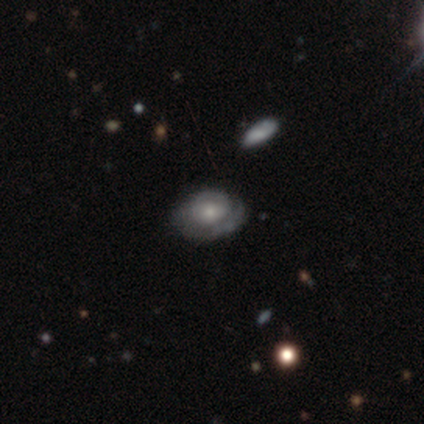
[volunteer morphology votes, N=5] This appears to be a featured or disk galaxy (60%) with no bar (100%), medium (67%) spiral arms (100%) and a large central bulge (33%, tied with moderate and small). Merging: none (60%).